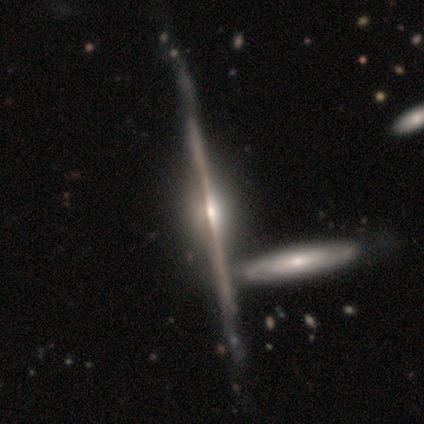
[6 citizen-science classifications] Overall: featured or disk (83%). Edge-on disk: yes (100%). Edge-on bulge: rounded (80%). Merging: minor disturbance (60%; none 40%).